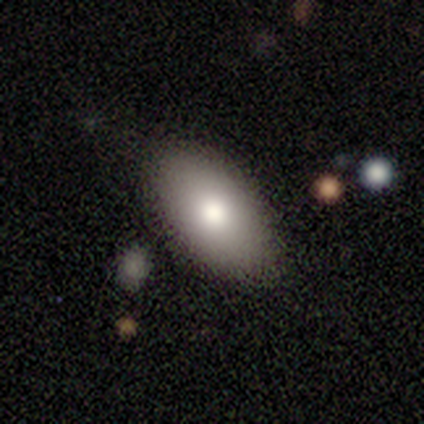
A smooth galaxy with no disk features (100%) that is in between round and cigar-shaped (100%). Merging: none (100%).